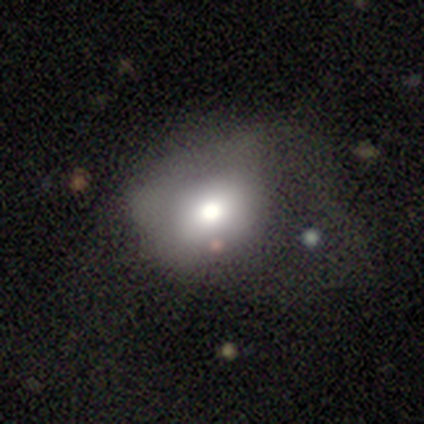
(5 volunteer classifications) This appears to be a smooth galaxy with no disk features (40%, tied with featured or disk) that is round (50%, tied with in between). Merging: none (50%, tied with minor disturbance).